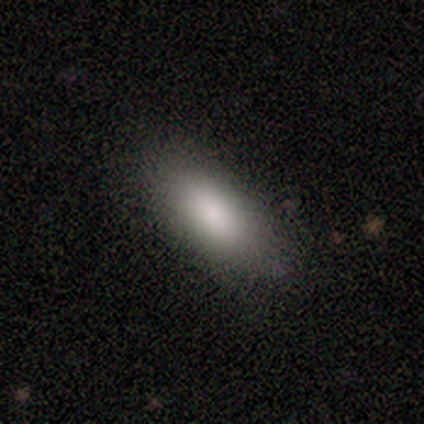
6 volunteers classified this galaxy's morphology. smooth_or_featured: smooth (p=1.00)
how_rounded: in between (p=1.00)
merging: none (p=1.00)